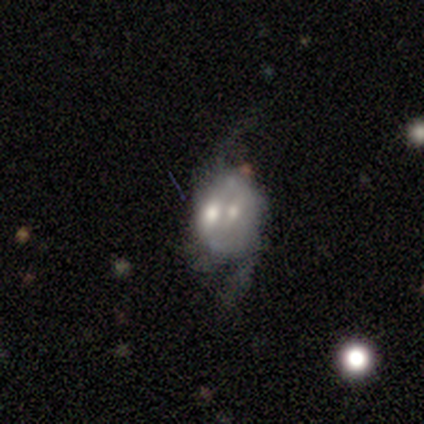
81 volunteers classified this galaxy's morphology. smooth-or-featured: featured or disk: 69% | smooth: 27% | star or artifact: 4%
  disk-edge-on: no: 95% | yes: 5%
    bar: no: 75% | weak: 21% | strong: 4%
    has-spiral-arms: yes: 60% | no: 40%
      spiral-winding: loose: 72% | medium: 28% | tight: 0%
      spiral-arm-count: 2: 84% | can't tell: 12% | 1: 3% | 3: 0% | 4: 0% | more than 4: 0%
    bulge-size: small: 43% | moderate: 32% | large: 13% | none: 8% | dominant: 4%
  merging: merger: 32% | none: 13% | minor disturbance: 6% | major disturbance: 6%